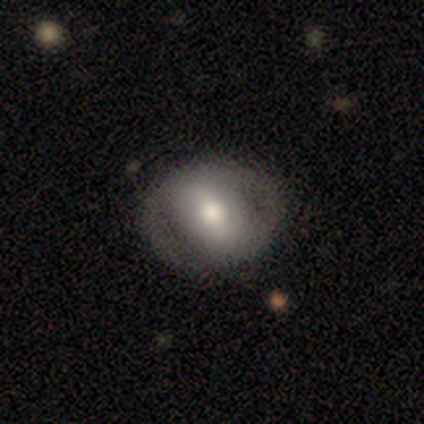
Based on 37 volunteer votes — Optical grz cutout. It shows a featured or disk galaxy (62%) with a weak bar (55%), no spiral arms (68%) and a moderate central bulge (55%). Merging: none (78%).